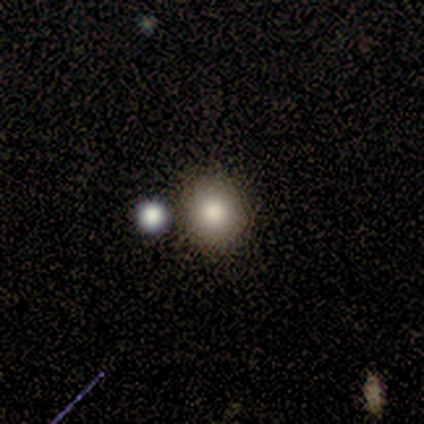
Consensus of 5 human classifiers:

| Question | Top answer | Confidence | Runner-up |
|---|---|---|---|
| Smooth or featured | smooth | 100% | — |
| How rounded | round | 100% | — |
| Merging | none | 80% | merger (20%) |